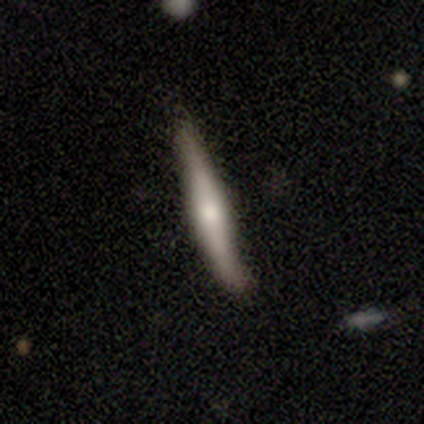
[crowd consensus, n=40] Smooth or featured?
  - featured or disk: 50% *
  - smooth: 48%
  - star or artifact: 2%
Edge-on disk?
  - yes: 100% *
  - no: 0%
Edge-on bulge?
  - rounded: 60% *
  - boxy: 35%
  - none: 5%
Merging?
  - none: 36% *
  - minor disturbance: 31%
  - major disturbance: 3%
  - merger: 3%